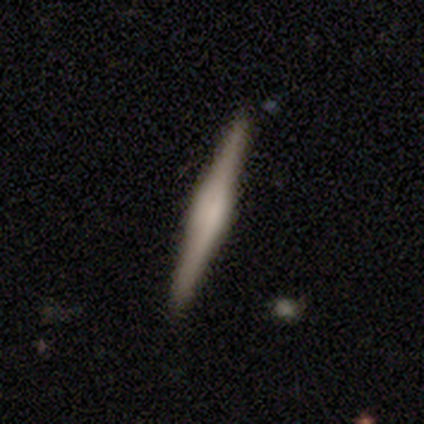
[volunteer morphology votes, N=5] smooth_or_featured: featured or disk (p=0.80) [alt: smooth p=0.20]
disk_edge_on: yes (p=1.00)
edge_on_bulge: boxy (p=0.50) [alt: none p=0.25]
merging: none (p=1.00)